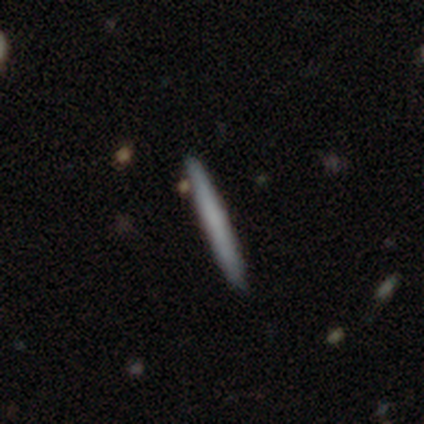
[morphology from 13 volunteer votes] smooth-or-featured: smooth: 92% | star or artifact: 8% | featured or disk: 0%
  how-rounded: cigar-shaped: 100% | round: 0% | in between: 0%
  merging: none: 83% | minor disturbance: 17% | major disturbance: 0% | merger: 0%